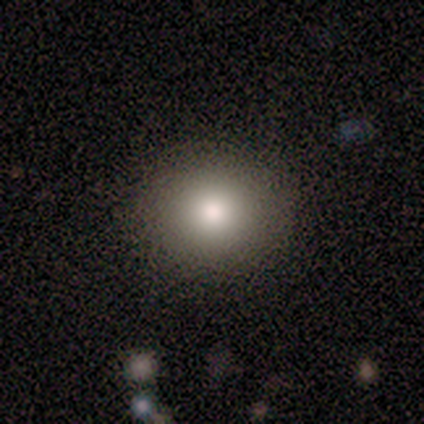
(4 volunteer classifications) This appears to be a smooth galaxy with no disk features (75%) that is in between round and cigar-shaped (67%). Merging: none (75%).